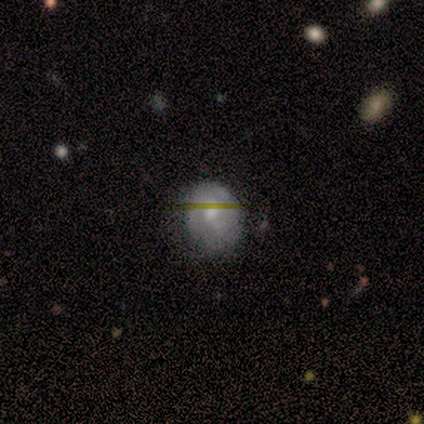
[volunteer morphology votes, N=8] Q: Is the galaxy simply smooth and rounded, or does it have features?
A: smooth — 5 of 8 (62%).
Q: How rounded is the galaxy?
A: round — 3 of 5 (60%).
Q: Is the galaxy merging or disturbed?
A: minor disturbance — 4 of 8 (50%).